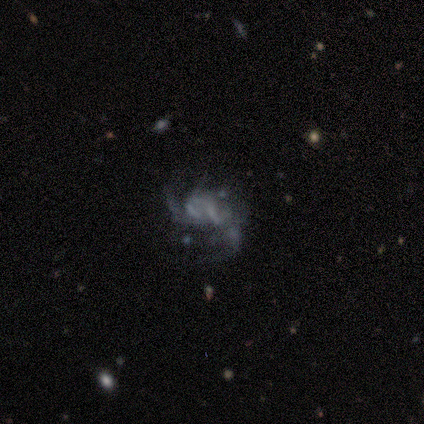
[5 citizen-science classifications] Smooth or featured?
  - featured or disk: 80% *
  - smooth: 20%
  - star or artifact: 0%
Edge-on disk?
  - no: 100% *
  - yes: 0%
Bar?
  - no: 100% *
  - strong: 0%
  - weak: 0%
Spiral arms?
  - yes: 75% *
  - no: 25%
Spiral winding?
  - tight: 33% * (tied)
  - medium: 33% * (tied)
  - loose: 33% * (tied)
Spiral arm count?
  - can't tell: 67% *
  - 2: 33%
  - 1: 0%
  - 3: 0%
  - 4: 0%
  - more than 4: 0%
Bulge size?
  - none: 75% *
  - small: 25%
  - dominant: 0%
  - large: 0%
  - moderate: 0%
Merging?
  - major disturbance: 60% *
  - none: 20%
  - merger: 20%
  - minor disturbance: 0%